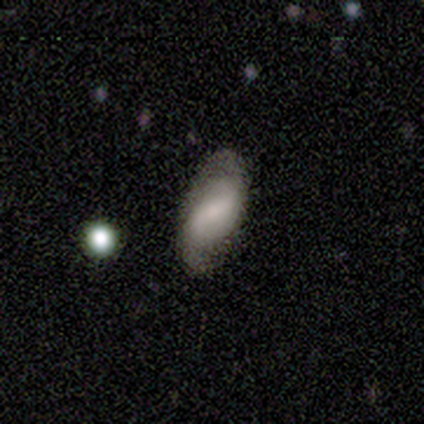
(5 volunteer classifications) smooth_or_featured: featured or disk (p=1.00)
disk_edge_on: no (p=1.00)
bar: strong (p=0.40) [tied with: weak p=0.40]
has_spiral_arms: yes (p=1.00)
spiral_winding: loose (p=0.60) [alt: tight p=0.40]
spiral_arm_count: 2 (p=0.60) [alt: 3 p=0.20]
bulge_size: moderate (p=0.40) [tied with: small p=0.40]
merging: none (p=0.80) [alt: minor disturbance p=0.20]